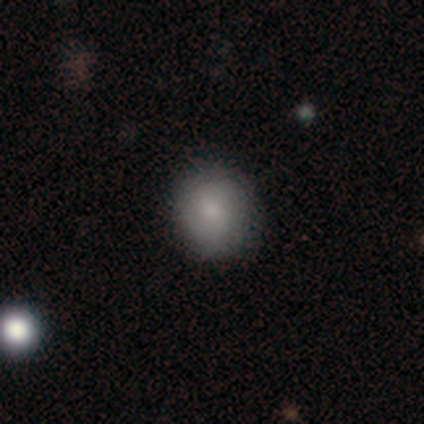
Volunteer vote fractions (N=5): A smooth galaxy with no disk features (80%) that is round (50%, tied with in between). Merging: none (75%).